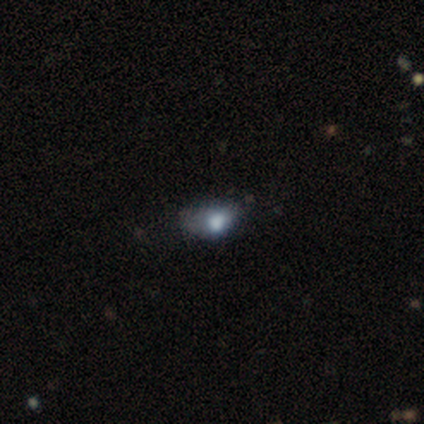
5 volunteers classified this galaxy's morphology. Volunteers were most divided on "smooth or featured" (2-way tie): smooth: 40%, featured or disk: 40%, star or artifact: 20%. More confident: how rounded — in between (100%); merging — minor disturbance (75%).